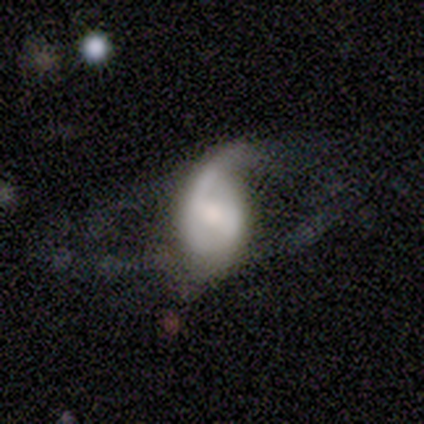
Smooth or featured? featured or disk (71%)
Edge-on disk? no (100%)
Bar? weak (60%)
Spiral arms? yes (80%)
Spiral winding? medium (50%, tied with loose)
Spiral arm count? 2 (75%)
Bulge size? large (40%, tied with moderate)
Merging? none (50%)